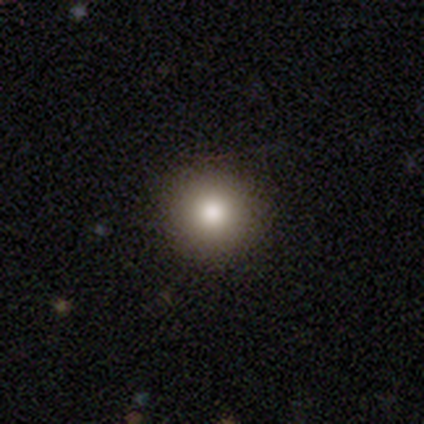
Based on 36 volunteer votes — A smooth galaxy with no disk features (69%) that is round (96%).

Vote fractions:
- Smooth or featured? smooth: 69% / featured or disk: 17% / star or artifact: 14%
- How rounded? round: 96% / in between: 4% / cigar-shaped: 0%
- Merging? none: 90% / major disturbance: 6% / minor disturbance: 3% / merger: 0%